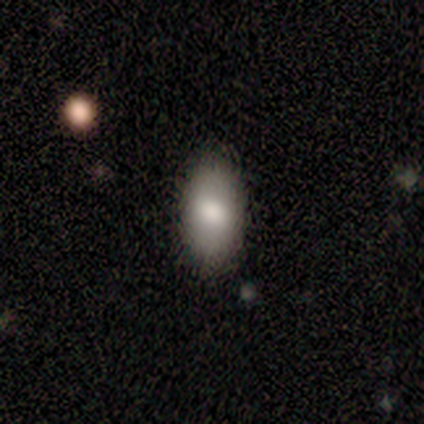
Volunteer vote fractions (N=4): Overall: smooth (75%). How rounded: in between (67%; round 33%). Merging: none (67%; minor disturbance 33%).